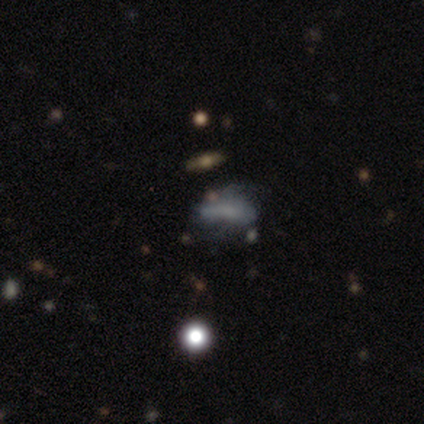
smooth_or_featured: featured or disk (p=0.50) [alt: smooth p=0.33]
disk_edge_on: no (p=1.00)
bar: no (p=0.67) [alt: weak p=0.33]
has_spiral_arms: no (p=1.00)
bulge_size: moderate (p=0.33) [tied with: small p=0.33, none p=0.33]
merging: minor disturbance (p=0.60) [alt: none p=0.20]